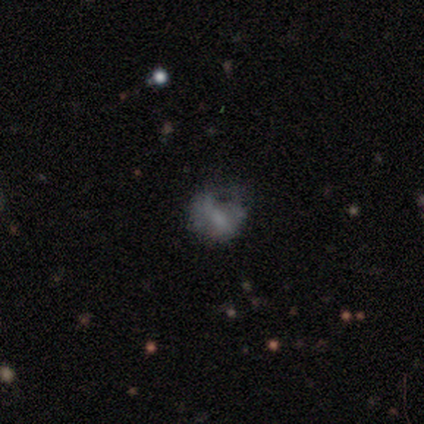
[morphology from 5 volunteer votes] Smooth or featured?
  - smooth: 60% *
  - star or artifact: 40%
  - featured or disk: 0%
How rounded?
  - round: 100% *
  - in between: 0%
  - cigar-shaped: 0%
Merging?
  - major disturbance: 67% *
  - none: 33%
  - minor disturbance: 0%
  - merger: 0%